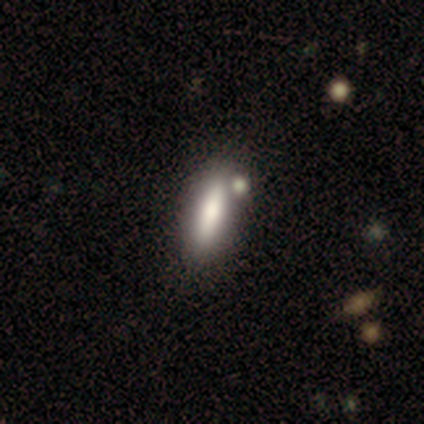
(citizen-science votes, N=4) Morphology: type=smooth (50%, tied with featured or disk); roundness=in between (50%, tied with cigar-shaped); merging=none (50%, tied with minor disturbance).